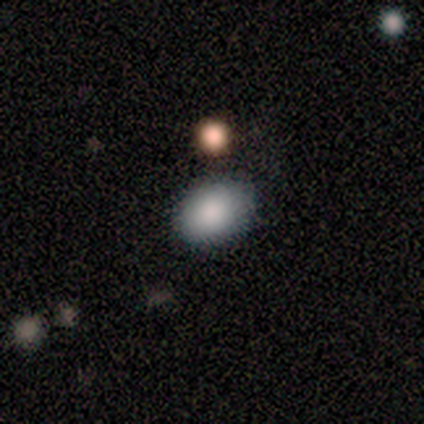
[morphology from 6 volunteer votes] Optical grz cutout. It shows a smooth galaxy with no disk features (100%) that is in between round and cigar-shaped (100%). Merging: none (100%).